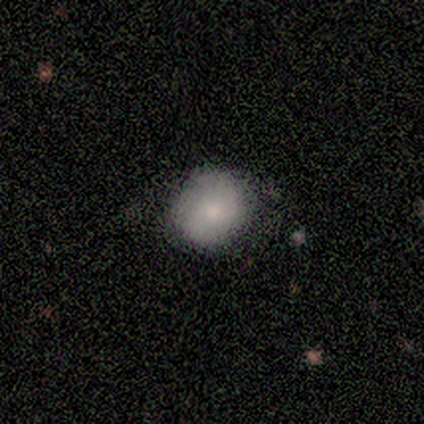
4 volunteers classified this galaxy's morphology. type=smooth (50%, tied with featured or disk); roundness=round (100%); merging=none (100%).